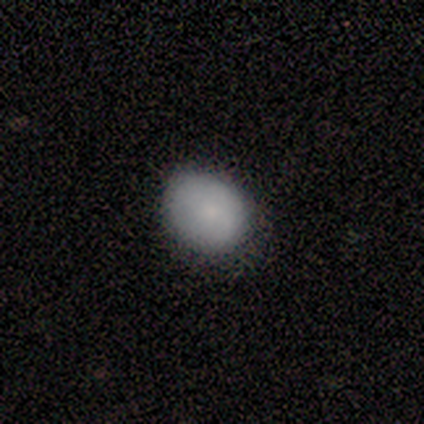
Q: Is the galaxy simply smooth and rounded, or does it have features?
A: smooth — 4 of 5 (80%).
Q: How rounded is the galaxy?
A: in between — 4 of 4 (100%).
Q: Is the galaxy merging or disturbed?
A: minor disturbance — 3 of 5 (60%).